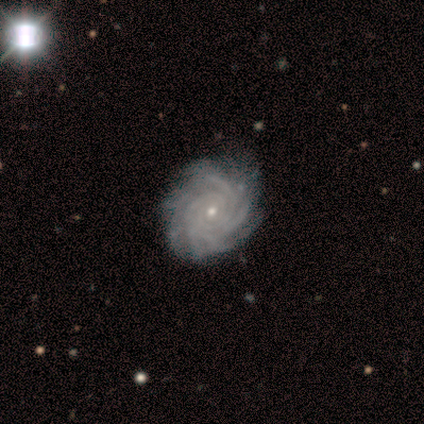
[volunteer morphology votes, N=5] This appears to be a featured or disk galaxy (100%) with no bar (100%), more than 4 (60%) tight (100%) spiral arms (100%) and a small central bulge (80%). Merging: none (60%).